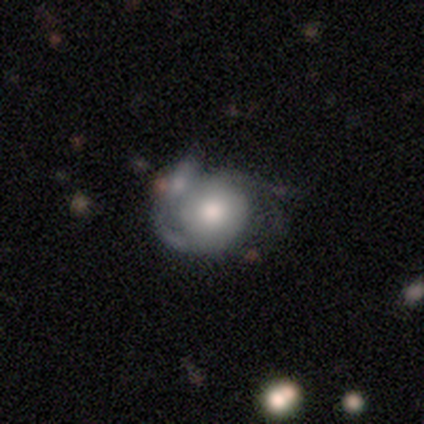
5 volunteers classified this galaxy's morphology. Smooth or featured: featured or disk — 60% (smooth — 40%)
Edge-on disk: no — 100%
Bar: no — 100%
Spiral arms: no — 67% (yes — 33%)
Bulge size: moderate — 100%
Merging: minor disturbance — 40% (none — 20%)